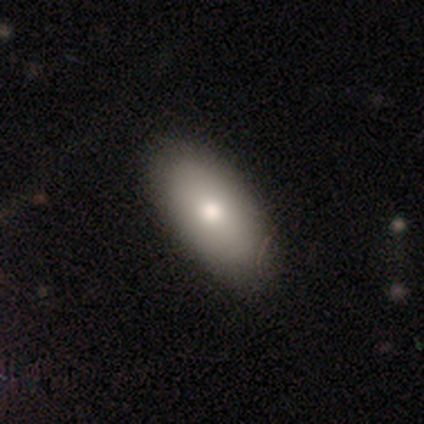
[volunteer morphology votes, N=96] A smooth galaxy with no disk features (78%) that is in between round and cigar-shaped (91%). Merging: none (79%).